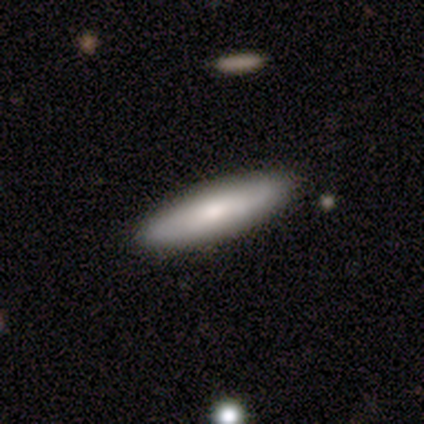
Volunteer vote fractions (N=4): Morphology: type=smooth (75%); roundness=in between (67%); merging=none (100%).